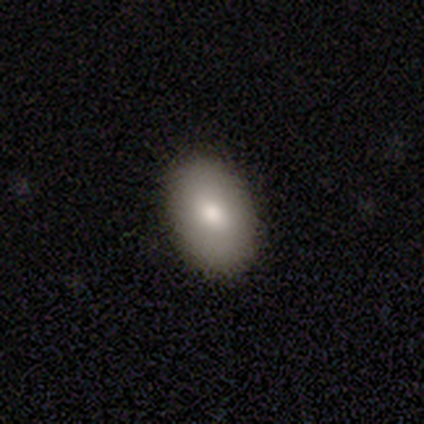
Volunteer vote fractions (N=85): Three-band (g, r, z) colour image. It shows a smooth galaxy with no disk features (79%) that is in between round and cigar-shaped (91%). Merging: none (90%).